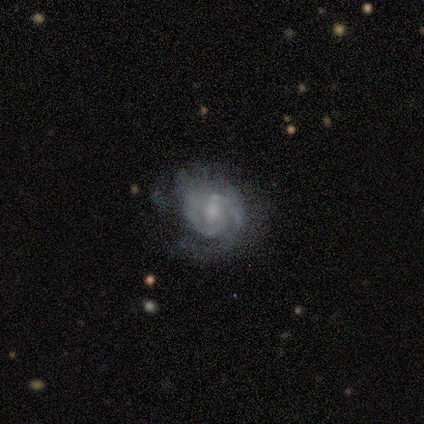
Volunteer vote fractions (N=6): Smooth or featured? 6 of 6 (100%) said featured or disk. Edge-on disk? 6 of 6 (100%) said no. Bar? 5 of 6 (83%) said no. Spiral arms? 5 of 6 (83%) said yes. Spiral winding? 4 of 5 (80%) said tight. Spiral arm count? 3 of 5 (60%) said 2. Bulge size? 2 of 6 (33%, tied with small and none) said moderate. Merging? 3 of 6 (50%) said major disturbance.